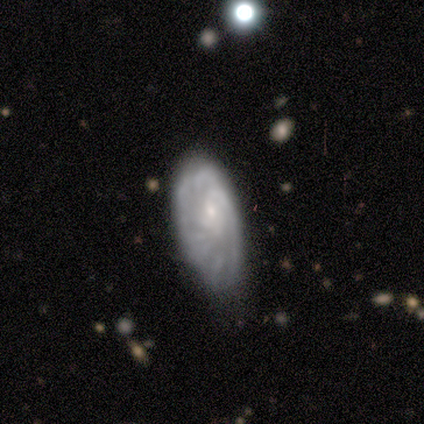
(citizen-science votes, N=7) This is clearly a featured or disk galaxy (100%). It is clearly not viewed edge-on (100%). Bar: clearly no (86%). Spiral arm pattern: clearly yes (86%). Spiral arm count: likely can't tell (67%). Spiral winding: likely tight (67%). Central bulge: clearly small (86%). Merging: clearly minor disturbance (86%).